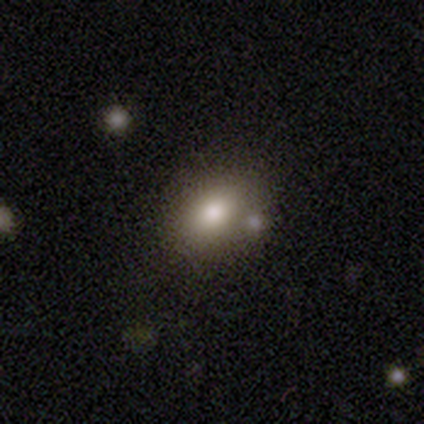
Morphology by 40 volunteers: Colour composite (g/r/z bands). It shows a smooth galaxy with no disk features (62%) that is in between round and cigar-shaped (68%). Merging: none (62%).